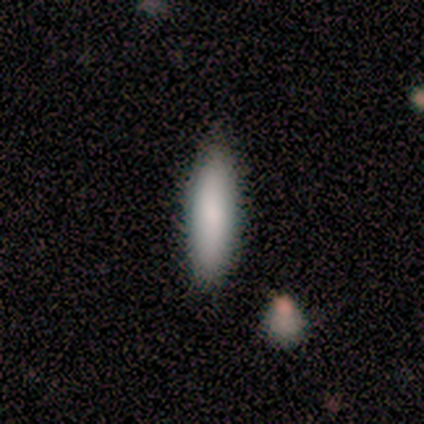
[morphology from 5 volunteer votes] This is clearly a smooth galaxy (100%). How rounded: likely cigar-shaped (60%). Merging: clearly none (80%).